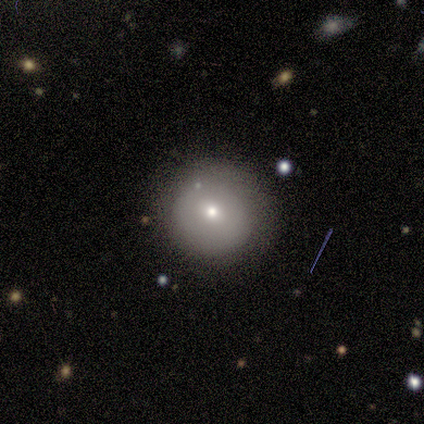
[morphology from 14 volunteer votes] Smooth or featured?
  - smooth: 71% *
  - featured or disk: 21%
  - star or artifact: 7%
How rounded?
  - round: 80% *
  - in between: 20%
  - cigar-shaped: 0%
Merging?
  - none: 77% *
  - minor disturbance: 15%
  - major disturbance: 8%
  - merger: 0%